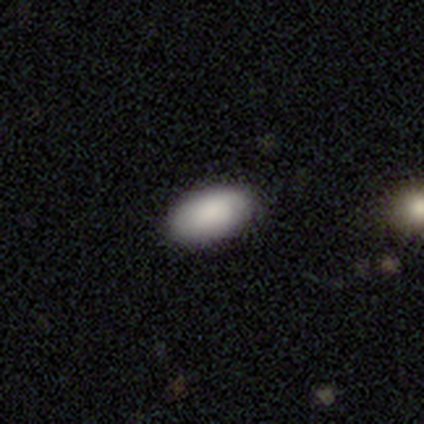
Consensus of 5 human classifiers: Smooth or featured: smooth — 100%
How rounded: in between — 100%
Merging: none — 100%